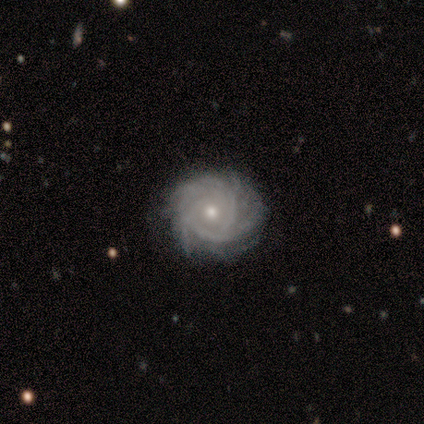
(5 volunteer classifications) Q: Smooth or featured?
A: featured or disk (100%)
Q: Edge-on disk?
A: no (100%)
Q: Bar?
A: no (100%)
Q: Spiral arms?
A: yes (80%); runner-up: no (20%)
Q: Spiral winding?
A: tight (75%); runner-up: medium (25%)
Q: Spiral arm count?
A: 3 (75%); runner-up: can't tell (25%)
Q: Bulge size?
A: small (60%); runner-up: moderate (40%)
Q: Merging?
A: none (60%); runner-up: minor disturbance (40%)